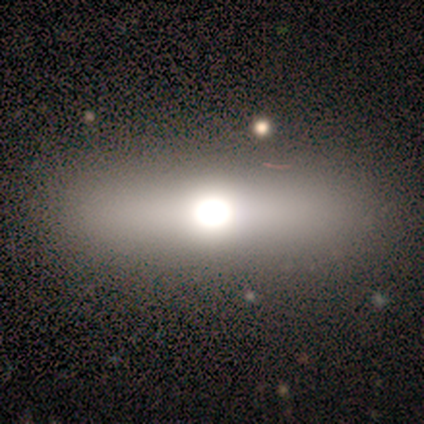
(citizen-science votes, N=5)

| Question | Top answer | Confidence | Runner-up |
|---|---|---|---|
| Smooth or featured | smooth | 80% | featured or disk (20%) |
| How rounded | in between | 50% | tied: cigar-shaped (50%) |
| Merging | none | 100% | — |